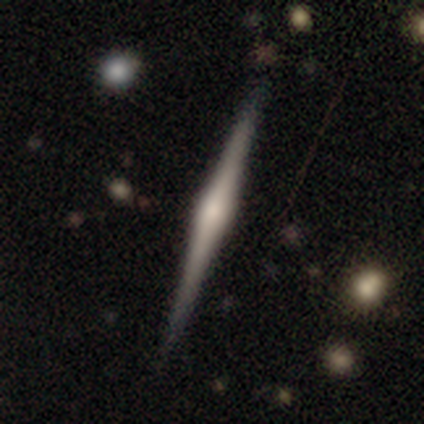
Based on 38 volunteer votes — Volunteers were most divided on "merging": none: 54%, minor disturbance: 5%, major disturbance: 0%, merger: 0%. More confident: edge-on disk — yes (100%); edge-on bulge — rounded (94%); smooth or featured — featured or disk (82%).